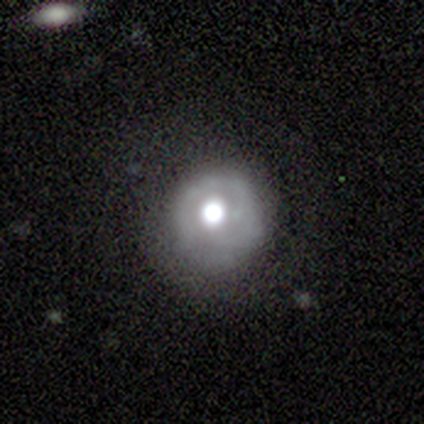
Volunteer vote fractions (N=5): Overall: featured or disk (80%). Edge-on disk: no (100%). Bar: no (75%). Spiral arms: no (75%). Bulge size: moderate (75%). Merging: none (75%).